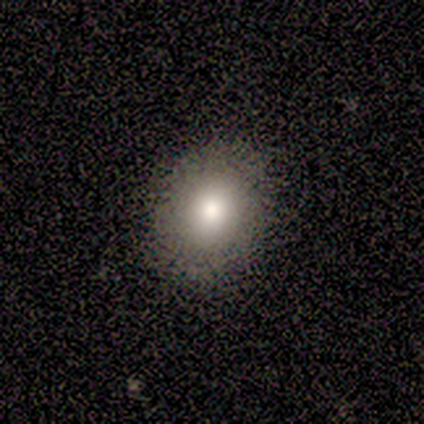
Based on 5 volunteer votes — smooth_or_featured: smooth (p=0.80) [alt: featured or disk p=0.20]
how_rounded: round (p=0.50) [tied with: in between p=0.50]
merging: none (p=1.00)